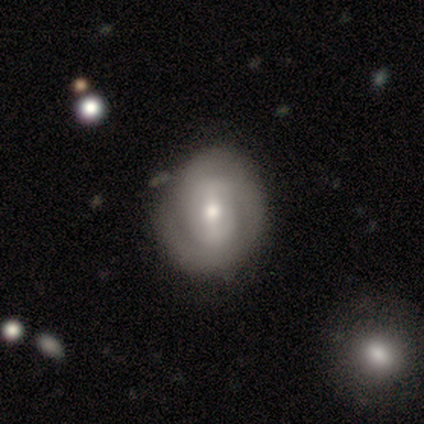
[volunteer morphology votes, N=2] This appears to be a featured or disk galaxy (100%) with a weak bar (50%, tied with no), 3 (100%) loose (100%) spiral arms (50%, tied with no) and a small central bulge (100%). Merging: none (50%, tied with minor disturbance).